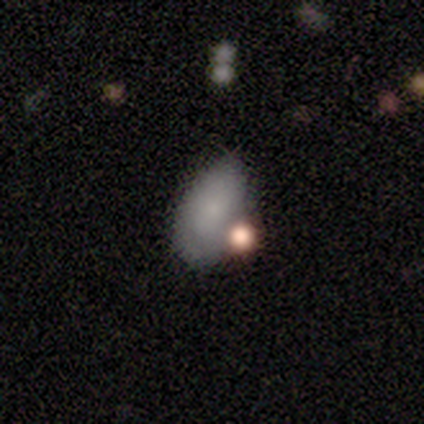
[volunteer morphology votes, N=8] smooth 50%, featured or disk 38%, star or artifact 12%. Down the decision tree: how rounded — in between (100%); merging — none (57%).